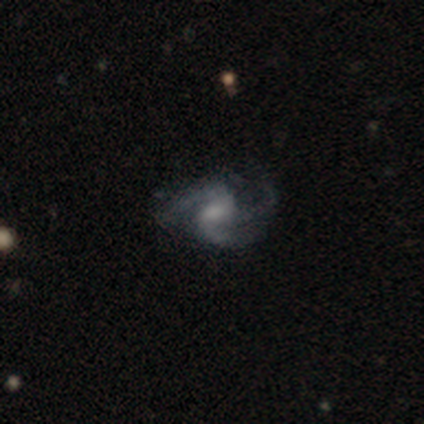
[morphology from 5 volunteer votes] Smooth or featured? 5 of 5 (100%) said featured or disk. Edge-on disk? 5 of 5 (100%) said no. Bar? 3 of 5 (60%) said no. Spiral arms? 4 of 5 (80%) said yes. Spiral winding? 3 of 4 (75%) said loose. Spiral arm count? 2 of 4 (50%) said 3. Bulge size? 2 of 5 (40%, tied with small) said moderate. Merging? 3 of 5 (60%) said none.